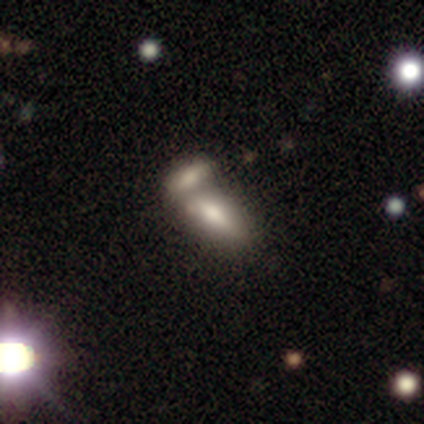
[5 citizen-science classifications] Volunteers were most divided on "merging" (2-way tie): none: 50%, merger: 50%, minor disturbance: 0%, major disturbance: 0%. More confident: how rounded — in between (100%); smooth or featured — smooth (60%).